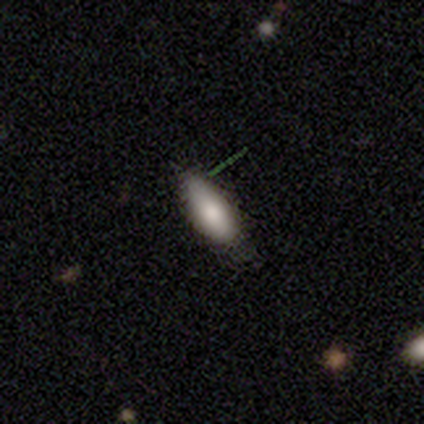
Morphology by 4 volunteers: This is likely a smooth galaxy (75%). How rounded: likely in between (67%). Merging: possibly none (50%).